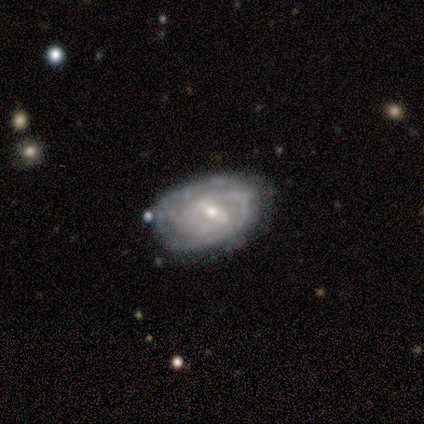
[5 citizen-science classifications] Smooth or featured? featured or disk (80%)
Edge-on disk? no (100%)
Bar? weak (50%)
Spiral arms? yes (100%)
Spiral winding? medium (50%)
Spiral arm count? can't tell (50%)
Bulge size? small (100%)
Merging? none (80%)